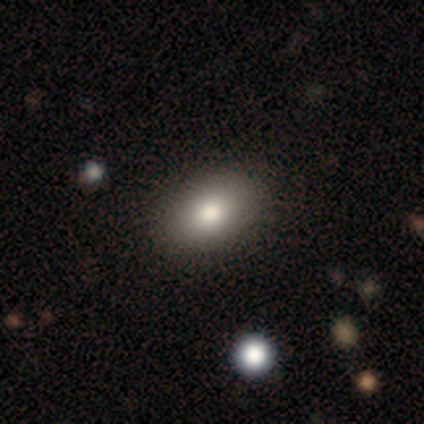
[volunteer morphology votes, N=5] Q: Smooth or featured?
A: smooth (100%)
Q: How rounded?
A: in between (80%); runner-up: round (20%)
Q: Merging?
A: none (100%)